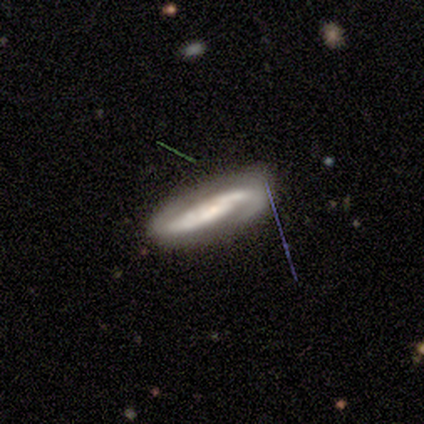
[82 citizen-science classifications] This is likely a featured or disk galaxy (73%). It is clearly not viewed edge-on (87%). Bar: marginally no (44%). Spiral arm pattern: clearly yes (96%). Spiral arm count: likely 2 (74%). Spiral winding: possibly medium (50%). Central bulge: possibly small (54%). Merging: likely none (67%).